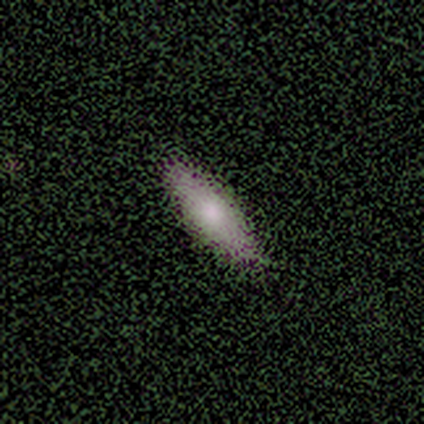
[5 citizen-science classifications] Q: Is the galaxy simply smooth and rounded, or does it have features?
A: smooth — 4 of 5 (80%).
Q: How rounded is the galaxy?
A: cigar-shaped — 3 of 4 (75%).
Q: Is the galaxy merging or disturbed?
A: none — 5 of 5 (100%).